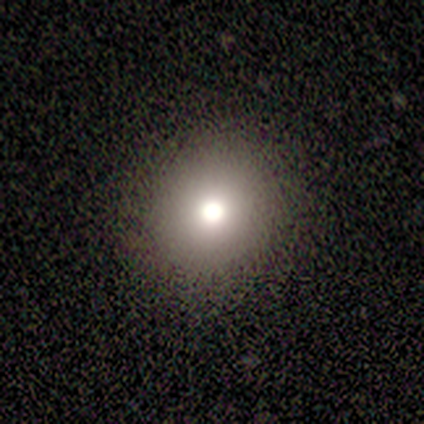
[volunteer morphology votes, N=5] smooth-or-featured: smooth: 60% | star or artifact: 40% | featured or disk: 0%
  how-rounded: round: 100% | in between: 0% | cigar-shaped: 0%
  merging: none: 100% | minor disturbance: 0% | major disturbance: 0% | merger: 0%